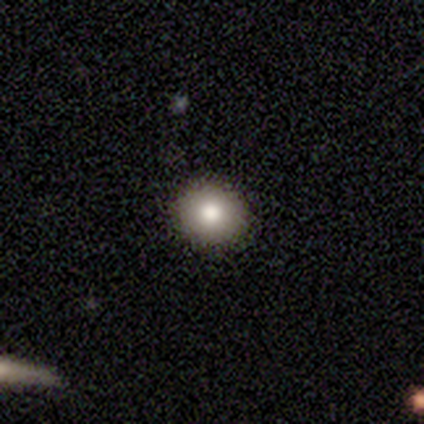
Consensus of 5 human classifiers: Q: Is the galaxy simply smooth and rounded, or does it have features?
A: smooth — 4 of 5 (80%).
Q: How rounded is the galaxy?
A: round — 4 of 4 (100%).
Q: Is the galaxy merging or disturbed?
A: none — 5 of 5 (100%).